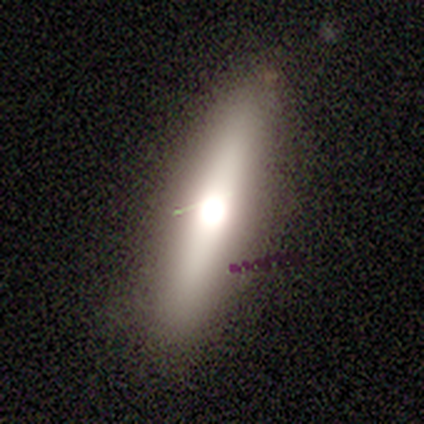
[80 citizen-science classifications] Q: Smooth or featured?
A: smooth (51%); runner-up: featured or disk (40%)
Q: How rounded?
A: cigar-shaped (61%); runner-up: in between (32%)
Q: Merging?
A: none (44%); runner-up: minor disturbance (4%)